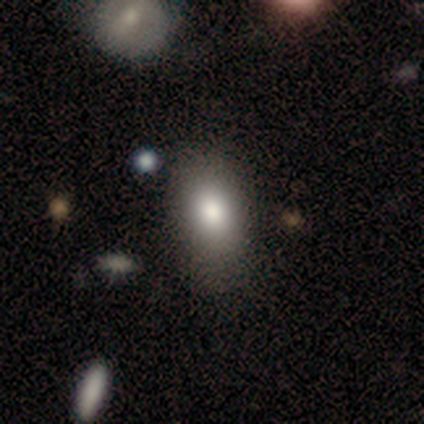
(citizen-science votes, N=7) A smooth galaxy with no disk features (100%) that is in between round and cigar-shaped (100%). Merging: none (71%).